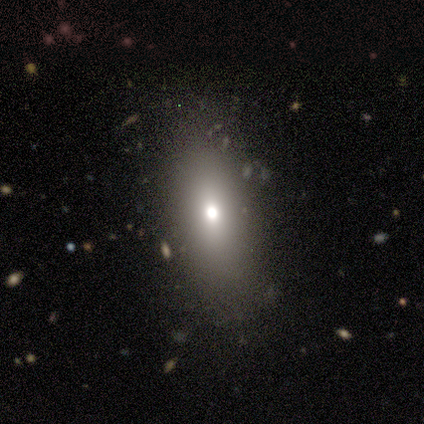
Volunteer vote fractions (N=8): Smooth or featured: smooth — 75% (featured or disk — 12%)
How rounded: in between — 83% (cigar-shaped — 17%)
Merging: none — 71% (minor disturbance — 29%)